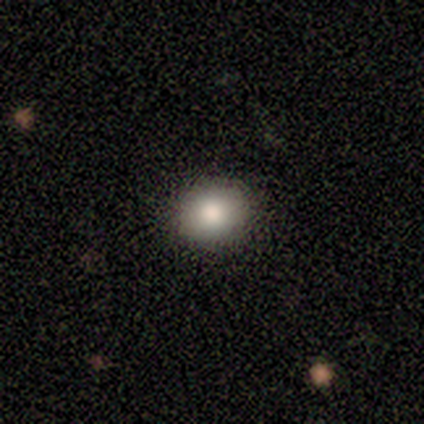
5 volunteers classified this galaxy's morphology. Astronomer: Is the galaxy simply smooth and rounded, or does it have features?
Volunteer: smooth — 100%.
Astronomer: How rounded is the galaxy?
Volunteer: round — 80%.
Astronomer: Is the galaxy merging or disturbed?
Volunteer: none — 100%.